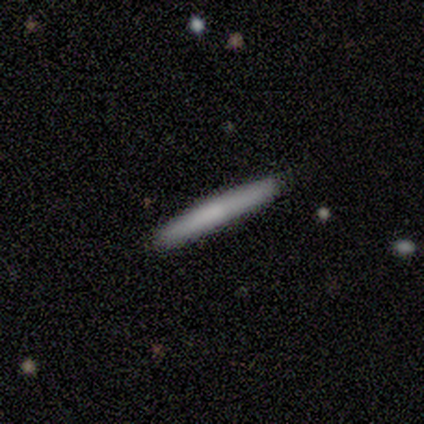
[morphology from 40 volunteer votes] smooth-or-featured: smooth: 72% | featured or disk: 28% | star or artifact: 0%
  how-rounded: cigar-shaped: 100% | round: 0% | in between: 0%
  merging: none: 92% | minor disturbance: 8% | major disturbance: 0% | merger: 0%